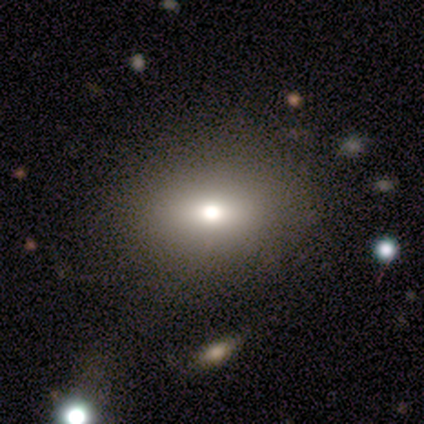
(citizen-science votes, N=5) Smooth or featured: smooth — 60% (featured or disk — 20%)
How rounded: round — 100%
Merging: none — 100%